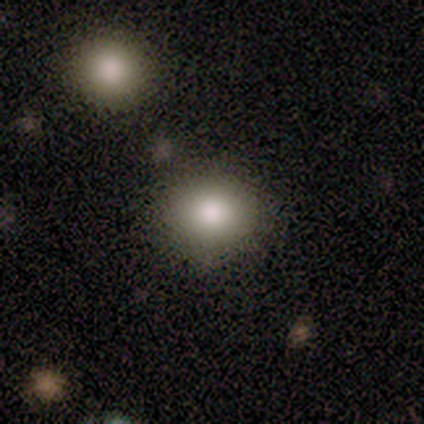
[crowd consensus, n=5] smooth 100%, featured or disk 0%, star or artifact 0%. Down the decision tree: how rounded — round (80%); merging — none (80%).